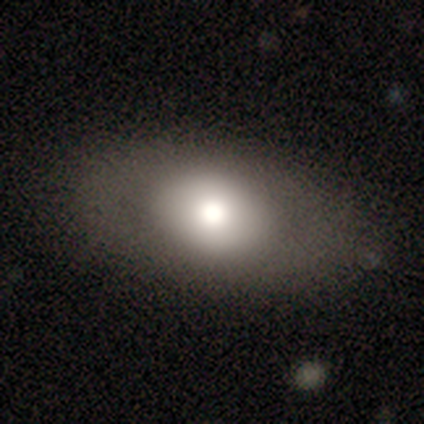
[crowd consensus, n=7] smooth 100%, featured or disk 0%, star or artifact 0%. Down the decision tree: how rounded — in between (86%); merging — none (86%).